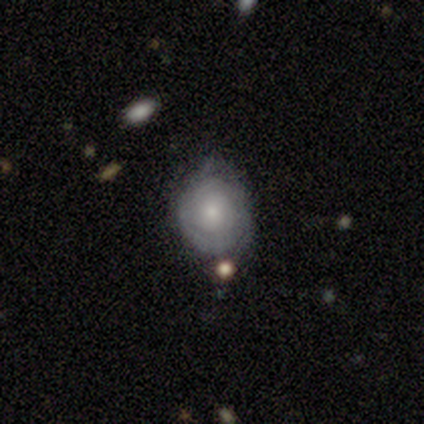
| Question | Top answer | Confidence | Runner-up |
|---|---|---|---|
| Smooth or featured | smooth | 40% | tied: featured or disk (40%) |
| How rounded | round | 100% | — |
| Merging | none | 50% | tied: minor disturbance (50%) |